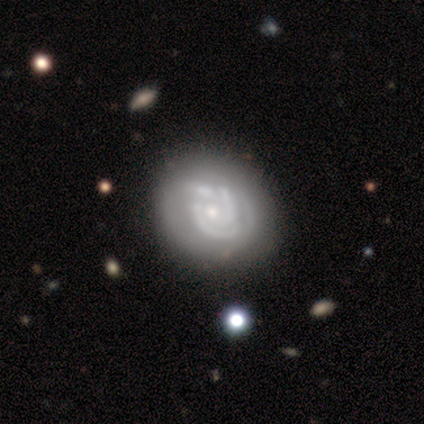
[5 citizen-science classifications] A featured or disk galaxy (80%) with no bar (75%), 3 (50%) tight (75%) spiral arms (100%) and a small central bulge (75%).

Vote fractions:
- Smooth or featured? featured or disk: 80% / smooth: 20% / star or artifact: 0%
- Edge-on disk? no: 100% / yes: 0%
- Bar? no: 75% / weak: 25% / strong: 0%
- Spiral arms? yes: 100% / no: 0%
- Spiral winding? tight: 75% / medium: 25% / loose: 0%
- Spiral arm count? 3: 50% / 1: 25% / 2: 25% / 4: 0% / more than 4: 0% / can't tell: 0%
- Bulge size? small: 75% / moderate: 25% / dominant: 0% / large: 0% / none: 0%
- Merging? none: 80% / minor disturbance: 20% / major disturbance: 0% / merger: 0%